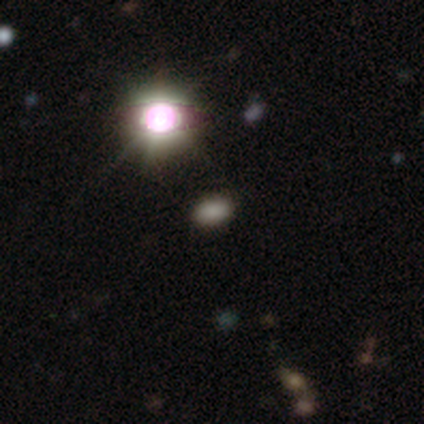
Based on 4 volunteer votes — This is likely a smooth galaxy (75%). How rounded: likely in between (67%). Merging: likely minor disturbance (67%).